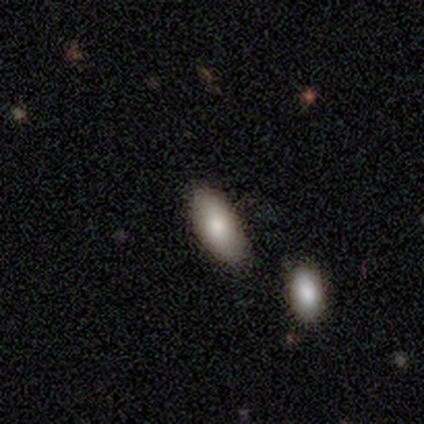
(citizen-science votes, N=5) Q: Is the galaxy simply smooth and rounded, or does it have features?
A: smooth — 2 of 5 (40%, tied with star or artifact).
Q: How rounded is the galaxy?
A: in between — 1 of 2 (50%, tied with cigar-shaped).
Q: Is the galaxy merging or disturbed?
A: none — 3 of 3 (100%).